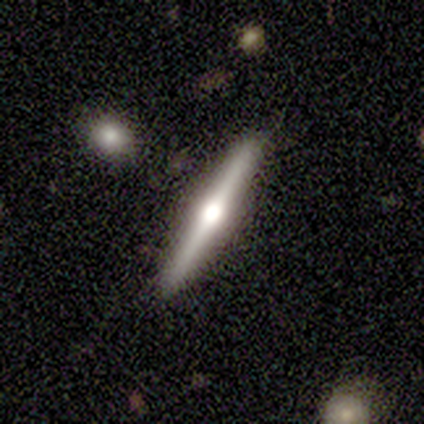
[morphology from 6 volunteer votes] Smooth or featured?
  - featured or disk: 67% *
  - smooth: 17%
  - star or artifact: 17%
Edge-on disk?
  - yes: 100% *
  - no: 0%
Edge-on bulge?
  - rounded: 100% *
  - boxy: 0%
  - none: 0%
Merging?
  - none: 100% *
  - minor disturbance: 0%
  - major disturbance: 0%
  - merger: 0%